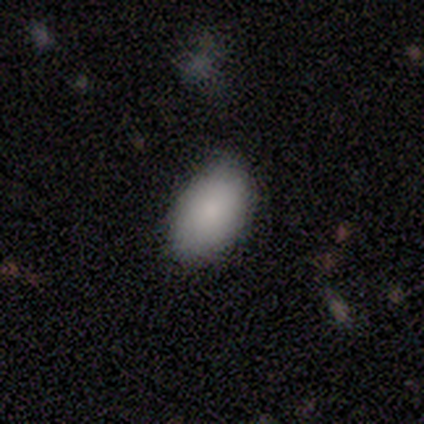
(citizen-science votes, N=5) Smooth or featured? 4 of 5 (80%) said smooth. How rounded? 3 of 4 (75%) said in between. Merging? 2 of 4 (50%, tied with minor disturbance) said none.